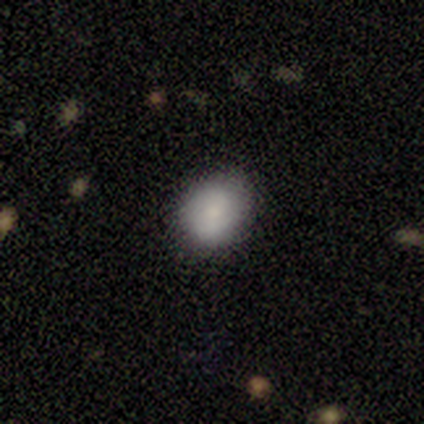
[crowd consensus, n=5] A smooth galaxy with no disk features (100%) that is round (60%).

Vote fractions:
- Smooth or featured? smooth: 100% / featured or disk: 0% / star or artifact: 0%
- How rounded? round: 60% / in between: 40% / cigar-shaped: 0%
- Merging? none: 80% / minor disturbance: 20% / major disturbance: 0% / merger: 0%